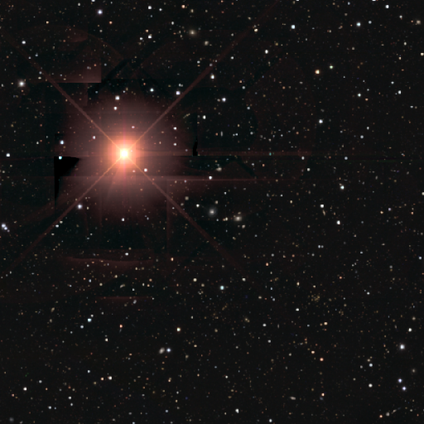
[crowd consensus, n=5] smooth_or_featured: star or artifact (p=1.00)